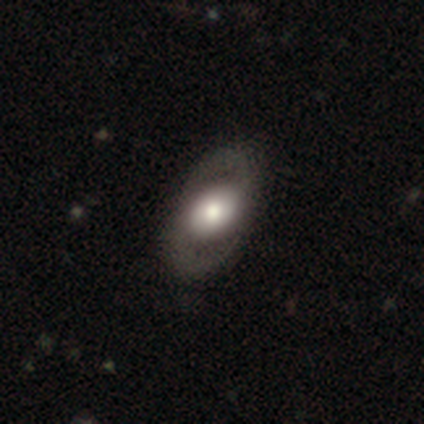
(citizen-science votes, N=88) This is likely a featured or disk galaxy (69%). It is clearly not viewed edge-on (97%). Bar: possibly no (59%). Spiral arm pattern: clearly yes (90%). Spiral arm count: clearly 2 (100%). Spiral winding: possibly medium (51%). Central bulge: possibly moderate (46%). Merging: clearly none (84%).